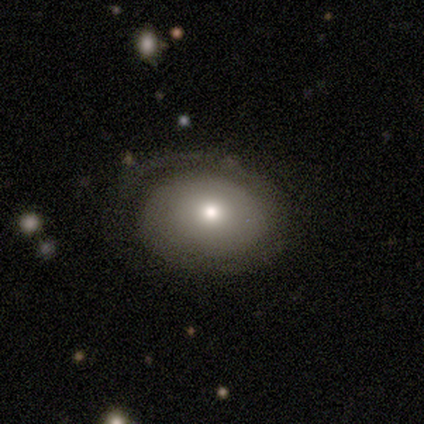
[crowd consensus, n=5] smooth_or_featured: smooth (p=0.80) [alt: featured or disk p=0.20]
how_rounded: round (p=0.75) [alt: in between p=0.25]
merging: none (p=0.40) [tied with: minor disturbance p=0.40]